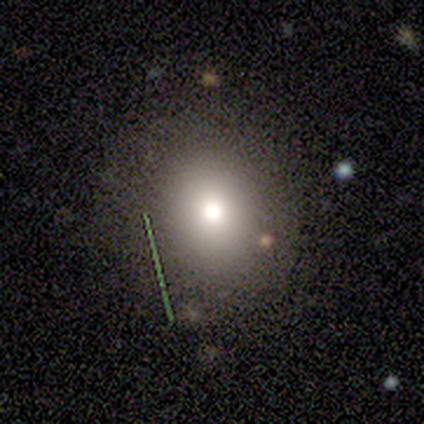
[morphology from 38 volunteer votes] A smooth galaxy with no disk features (66%) that is round (80%). Merging: none (83%).